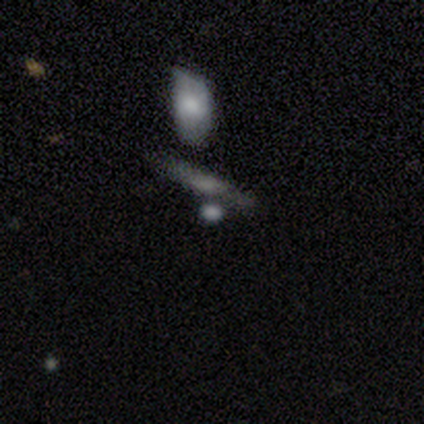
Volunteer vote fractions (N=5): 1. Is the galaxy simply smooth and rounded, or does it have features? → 60% star or artifact, 20% smooth, 20% featured or disk.